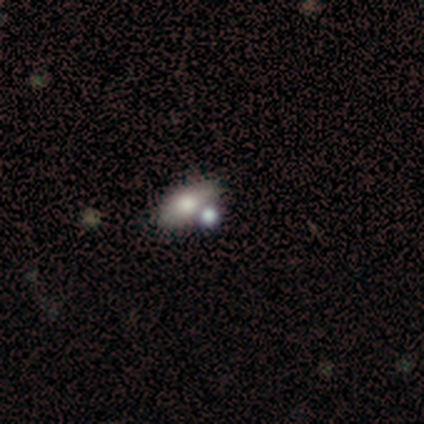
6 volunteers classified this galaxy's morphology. Smooth or featured?
  - smooth: 67% *
  - star or artifact: 33%
  - featured or disk: 0%
How rounded?
  - in between: 75% *
  - cigar-shaped: 25%
  - round: 0%
Merging?
  - none: 50% *
  - minor disturbance: 25%
  - merger: 25%
  - major disturbance: 0%